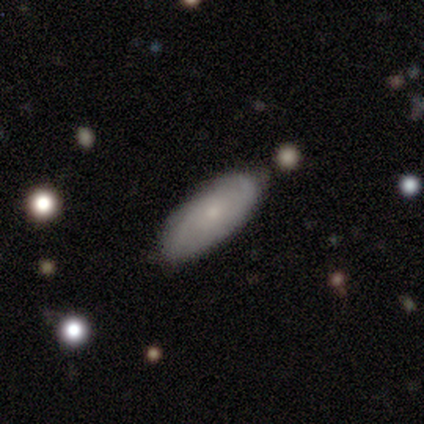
Volunteers were most divided on "smooth or featured": smooth: 60%, featured or disk: 40%, star or artifact: 0%. More confident: how rounded — in between (100%); merging — none (80%).